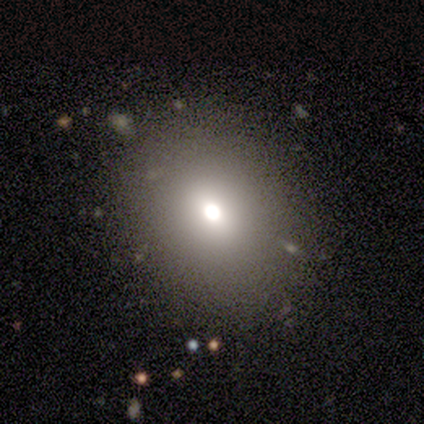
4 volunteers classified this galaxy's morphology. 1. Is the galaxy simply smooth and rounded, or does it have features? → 50% star or artifact, 25% smooth, 25% featured or disk.